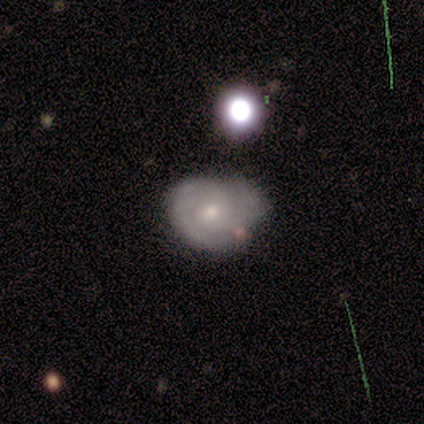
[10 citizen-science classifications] Smooth or featured: featured or disk — 70% (smooth — 30%)
Edge-on disk: no — 100%
Bar: no — 86% (weak — 14%)
Spiral arms: yes — 86% (no — 14%)
Spiral winding: tight — 83% (medium — 17%)
Spiral arm count: 2 — 67% (can't tell — 33%)
Bulge size: small — 57% (moderate — 43%)
Merging: none — 50% (minor disturbance — 30%)